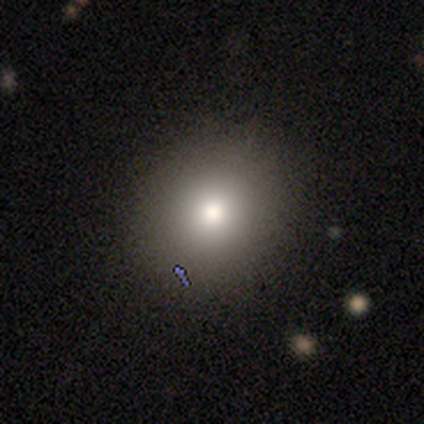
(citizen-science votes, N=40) smooth_or_featured: smooth (p=0.70) [alt: star or artifact p=0.17]
how_rounded: round (p=0.86) [alt: in between p=0.11]
merging: none (p=0.82) [alt: minor disturbance p=0.09]